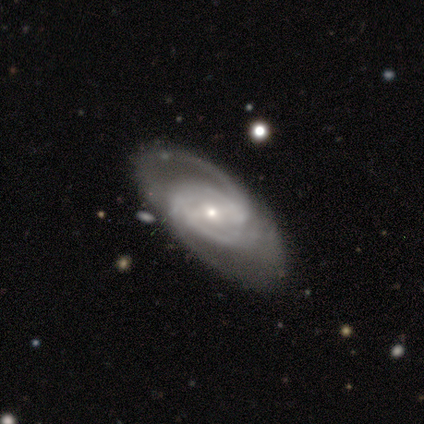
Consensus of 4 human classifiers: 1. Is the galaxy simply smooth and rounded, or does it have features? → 100% featured or disk, 0% smooth, 0% star or artifact.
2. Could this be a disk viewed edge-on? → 100% no, 0% yes.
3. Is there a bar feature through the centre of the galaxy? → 50% no, 25% strong, 25% weak.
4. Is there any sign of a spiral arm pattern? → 100% yes, 0% no.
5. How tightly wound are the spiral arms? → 75% tight, 25% medium, 0% loose.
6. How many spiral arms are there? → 75% 2, 25% 3, 0% 1, 0% 4, 0% more than 4, 0% can't tell.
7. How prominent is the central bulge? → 100% small, 0% dominant, 0% large, 0% moderate, 0% none.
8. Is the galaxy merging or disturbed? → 100% none, 0% minor disturbance, 0% major disturbance, 0% merger.